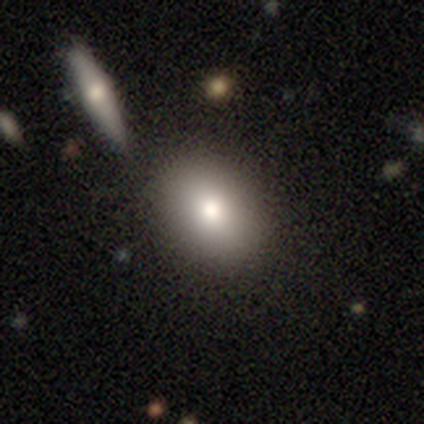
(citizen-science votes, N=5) Overall: smooth (100%). How rounded: in between (100%). Merging: none (100%).